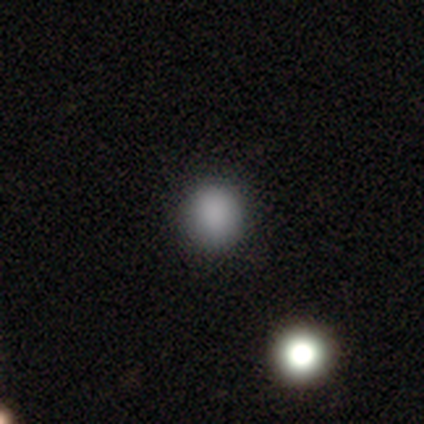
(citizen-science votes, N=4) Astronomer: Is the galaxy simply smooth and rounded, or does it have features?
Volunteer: smooth — 75%.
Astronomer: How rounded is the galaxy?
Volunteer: round — 67%.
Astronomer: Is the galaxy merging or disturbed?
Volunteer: none — 67%.